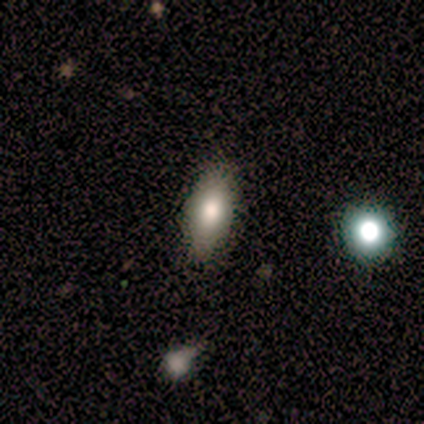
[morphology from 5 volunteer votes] smooth 80%, star or artifact 20%, featured or disk 0%. Down the decision tree: how rounded — in between (75%); merging — none (100%).